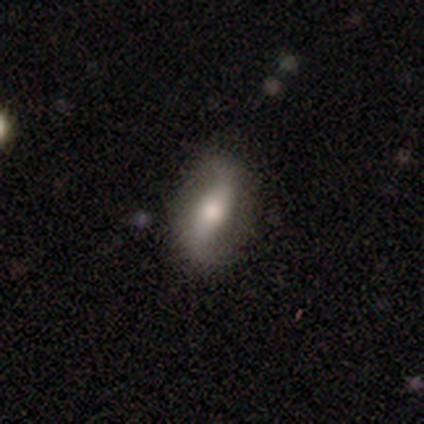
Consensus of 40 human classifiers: This appears to be a featured or disk galaxy (70%) with a weak bar (50%), 2 (95%) loose (79%) spiral arms (79%) and a moderate central bulge (62%). Merging: none (79%).